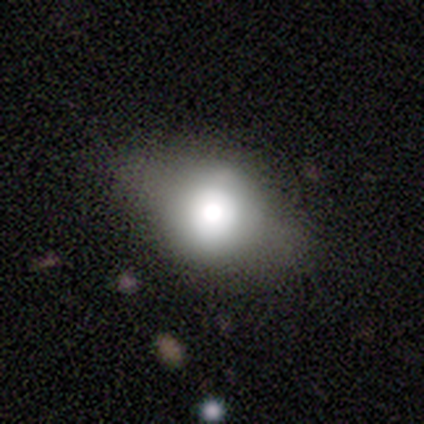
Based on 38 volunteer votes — smooth_or_featured: smooth (p=0.63) [alt: featured or disk p=0.32]
how_rounded: round (p=0.54) [alt: in between p=0.46]
merging: none (p=0.56) [alt: major disturbance p=0.11]